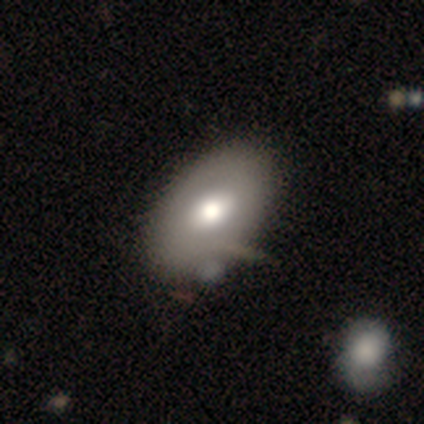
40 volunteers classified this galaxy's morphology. Overall: smooth (65%; featured or disk 32%). How rounded: in between (92%). Merging: none (44%; minor disturbance 10%).